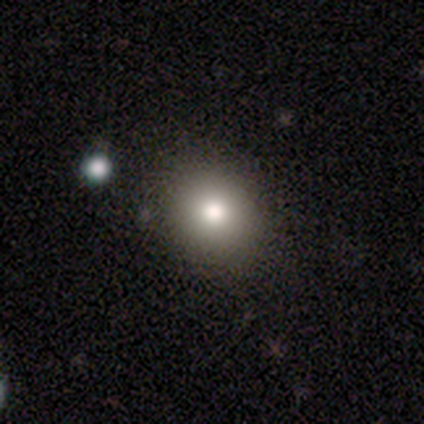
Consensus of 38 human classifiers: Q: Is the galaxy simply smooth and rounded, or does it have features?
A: smooth — 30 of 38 (79%).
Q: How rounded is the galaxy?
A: round — 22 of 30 (73%).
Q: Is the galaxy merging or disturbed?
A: none — 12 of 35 (34%).